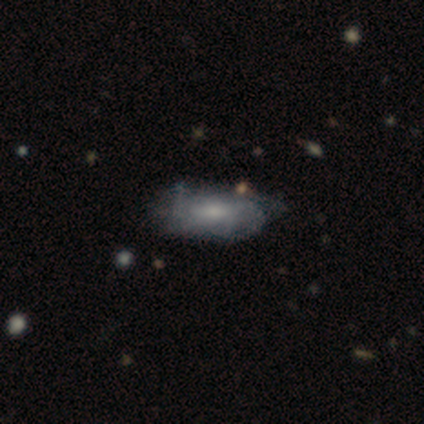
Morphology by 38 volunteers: Smooth or featured? featured or disk (50%)
Edge-on disk? no (95%)
Bar? no (56%)
Spiral arms? yes (67%)
Spiral winding? tight (50%, tied with medium)
Spiral arm count? can't tell (92%)
Bulge size? small (44%)
Merging? none (58%)